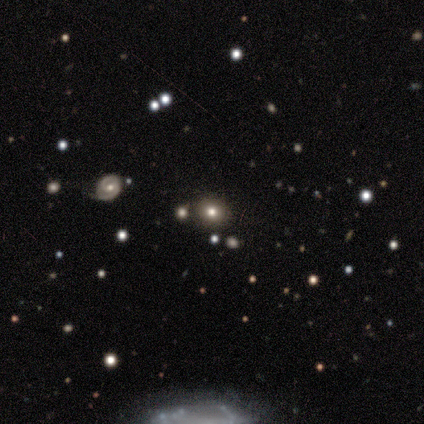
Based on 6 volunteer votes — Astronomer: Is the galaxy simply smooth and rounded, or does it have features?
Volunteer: featured or disk — 67%.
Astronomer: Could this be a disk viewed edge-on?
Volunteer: no — 75%.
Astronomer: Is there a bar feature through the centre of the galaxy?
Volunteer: no — 100%.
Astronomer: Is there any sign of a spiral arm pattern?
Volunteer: no — 100%.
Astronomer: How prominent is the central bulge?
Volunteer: moderate — 67%.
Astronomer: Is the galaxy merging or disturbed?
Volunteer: none — 100%.